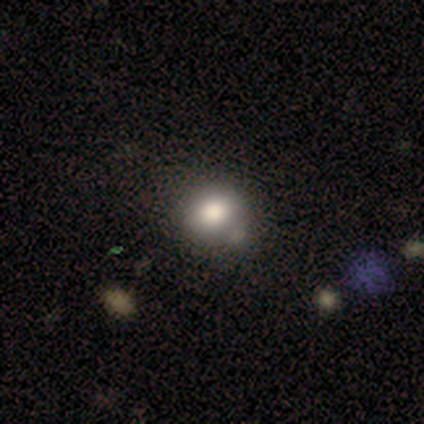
smooth 77%, featured or disk 13%, star or artifact 10%. Down the decision tree: how rounded — round (87%); merging — none (77%).